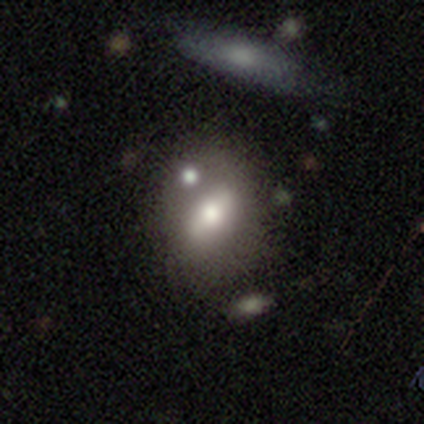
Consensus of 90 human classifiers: smooth_or_featured: smooth (p=0.49) [alt: featured or disk p=0.46]
how_rounded: in between (p=0.84) [alt: round p=0.16]
merging: none (p=0.55) [alt: merger p=0.20]